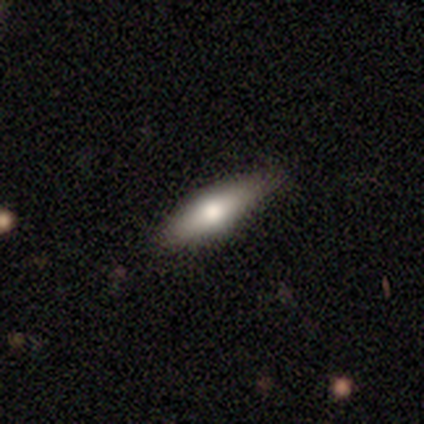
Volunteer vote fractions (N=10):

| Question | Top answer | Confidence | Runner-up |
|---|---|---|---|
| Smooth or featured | smooth | 50% | tied: featured or disk (50%) |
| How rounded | cigar-shaped | 60% | in between (40%) |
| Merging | none | 90% | major disturbance (10%) |